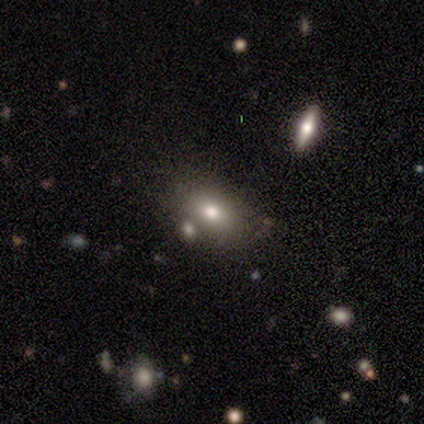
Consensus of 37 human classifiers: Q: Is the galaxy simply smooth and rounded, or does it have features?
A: smooth — 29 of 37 (78%).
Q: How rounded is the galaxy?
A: in between — 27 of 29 (93%).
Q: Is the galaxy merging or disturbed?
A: none — 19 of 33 (58%).